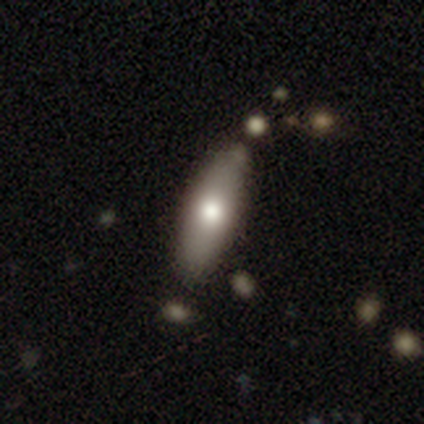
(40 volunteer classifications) A smooth galaxy with no disk features (68%) that is cigar-shaped (70%).

Vote fractions:
- Smooth or featured? smooth: 68% / featured or disk: 32% / star or artifact: 0%
- How rounded? cigar-shaped: 70% / in between: 26% / round: 4%
- Merging? none: 85% / minor disturbance: 8% / merger: 5% / major disturbance: 2%